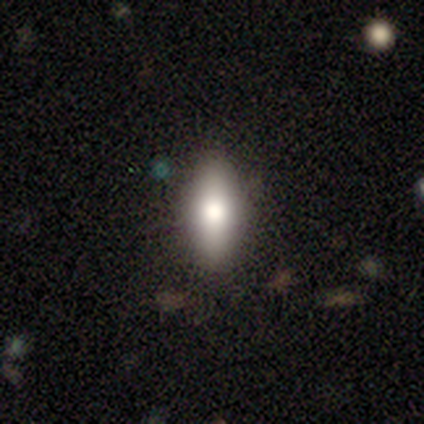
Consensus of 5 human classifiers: A smooth galaxy with no disk features (60%) that is in between round and cigar-shaped (67%).

Vote fractions:
- Smooth or featured? smooth: 60% / featured or disk: 20% / star or artifact: 20%
- How rounded? in between: 67% / cigar-shaped: 33% / round: 0%
- Merging? none: 100% / minor disturbance: 0% / major disturbance: 0% / merger: 0%